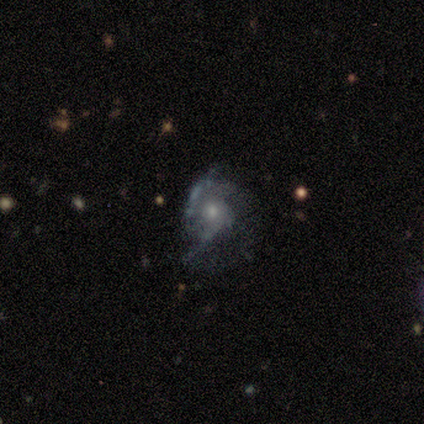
smooth_or_featured: featured or disk (p=0.67) [alt: smooth p=0.17]
disk_edge_on: no (p=1.00)
bar: weak (p=0.75) [alt: no p=0.25]
has_spiral_arms: yes (p=1.00)
spiral_winding: loose (p=0.75) [alt: medium p=0.25]
spiral_arm_count: 2 (p=0.50) [tied with: can't tell p=0.50]
bulge_size: small (p=0.50) [alt: moderate p=0.25]
merging: none (p=0.40) [tied with: major disturbance p=0.40]